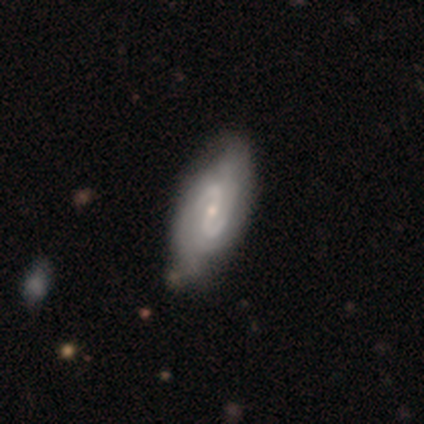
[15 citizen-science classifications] Smooth or featured? featured or disk (80%)
Edge-on disk? no (92%)
Bar? strong (45%)
Spiral arms? yes (100%)
Spiral winding? medium (73%)
Spiral arm count? 2 (82%)
Bulge size? small (82%)
Merging? none (80%)